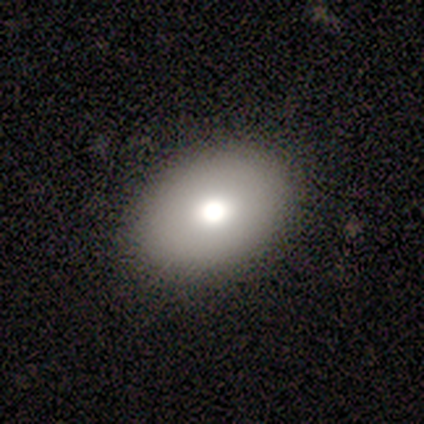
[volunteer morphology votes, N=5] Smooth or featured?
  - smooth: 80% *
  - featured or disk: 20%
  - star or artifact: 0%
How rounded?
  - in between: 75% *
  - cigar-shaped: 25%
  - round: 0%
Merging?
  - none: 80% *
  - minor disturbance: 20%
  - major disturbance: 0%
  - merger: 0%